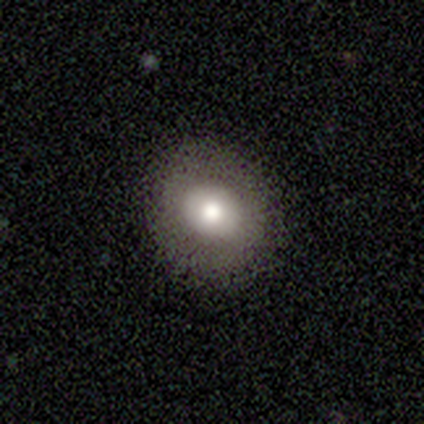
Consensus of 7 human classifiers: A smooth galaxy with no disk features (71%) that is round (60%). Merging: none (83%).